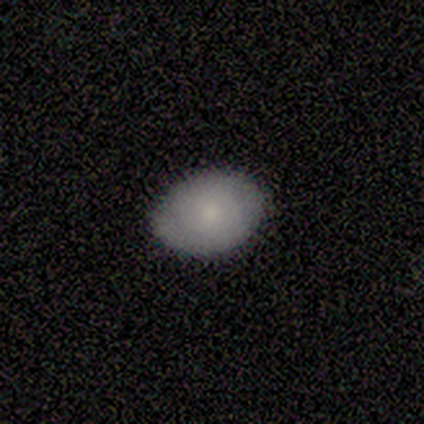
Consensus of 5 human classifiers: Q: Smooth or featured?
A: smooth (100%)
Q: How rounded?
A: in between (100%)
Q: Merging?
A: none (100%)